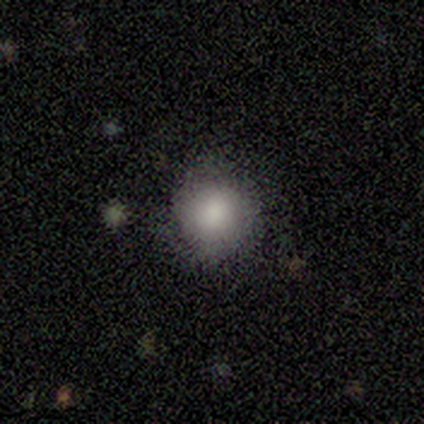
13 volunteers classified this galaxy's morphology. This appears to be a smooth galaxy with no disk features (62%) that is round (100%). Merging: none (64%).